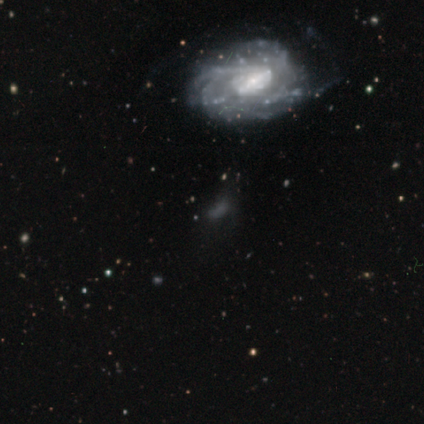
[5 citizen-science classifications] Smooth or featured? featured or disk (40%, tied with star or artifact)
Edge-on disk? no (100%)
Bar? strong (100%)
Spiral arms? yes (100%)
Spiral winding? medium (100%)
Spiral arm count? can't tell (100%)
Bulge size? large (50%, tied with moderate)
Merging? none (33%, tied with minor disturbance and major disturbance)